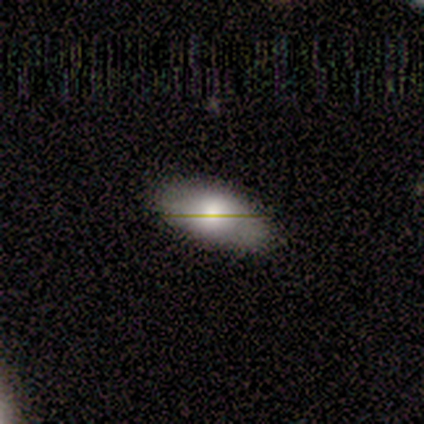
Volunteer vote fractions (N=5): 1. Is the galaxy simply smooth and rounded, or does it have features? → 80% smooth, 20% star or artifact, 0% featured or disk.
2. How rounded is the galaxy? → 100% in between, 0% round, 0% cigar-shaped.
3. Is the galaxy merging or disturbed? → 100% none, 0% minor disturbance, 0% major disturbance, 0% merger.